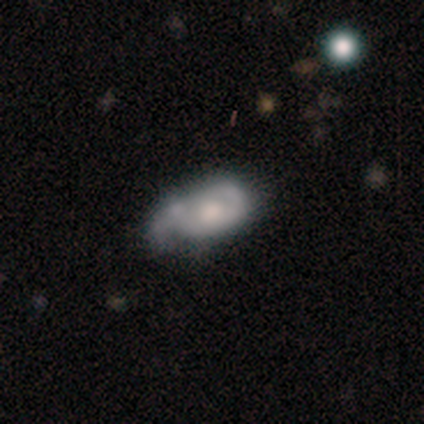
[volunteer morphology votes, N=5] smooth-or-featured: smooth: 60% | featured or disk: 40% | star or artifact: 0%
  how-rounded: in between: 100% | round: 0% | cigar-shaped: 0%
  merging: minor disturbance: 40% (tied) | major disturbance: 40% (tied) | none: 20% | merger: 0%